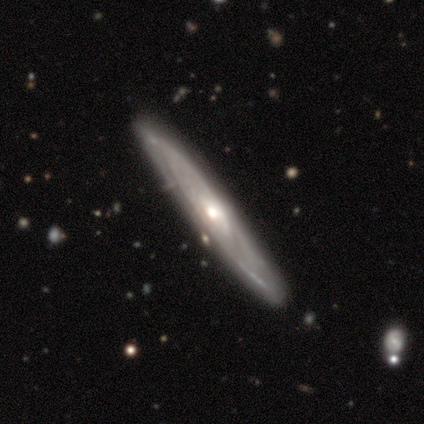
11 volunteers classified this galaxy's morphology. Q: Smooth or featured?
A: featured or disk (82%); runner-up: smooth (18%)
Q: Edge-on disk?
A: yes (89%); runner-up: no (11%)
Q: Edge-on bulge?
A: rounded (100%)
Q: Merging?
A: none (91%); runner-up: minor disturbance (9%)